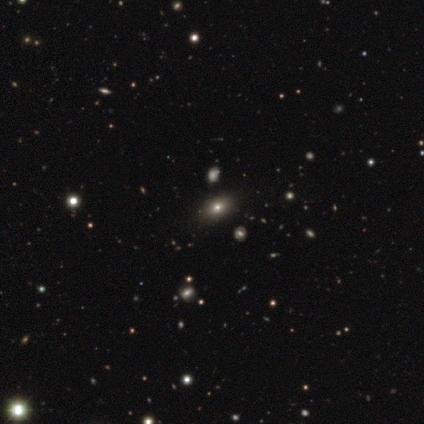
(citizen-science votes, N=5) Smooth or featured? 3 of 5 (60%) said smooth. How rounded? 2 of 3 (67%) said in between. Merging? 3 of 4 (75%) said none.